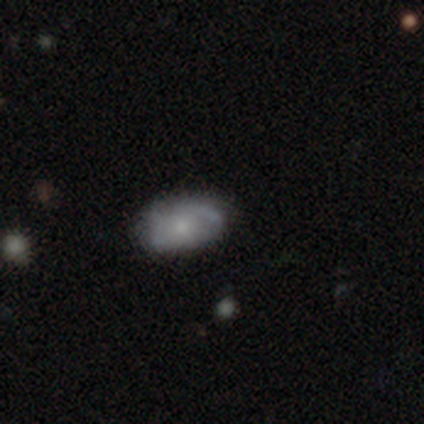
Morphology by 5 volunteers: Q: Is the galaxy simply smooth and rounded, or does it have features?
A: smooth — 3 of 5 (60%).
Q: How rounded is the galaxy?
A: in between — 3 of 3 (100%).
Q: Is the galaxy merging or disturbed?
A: none — 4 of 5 (80%).